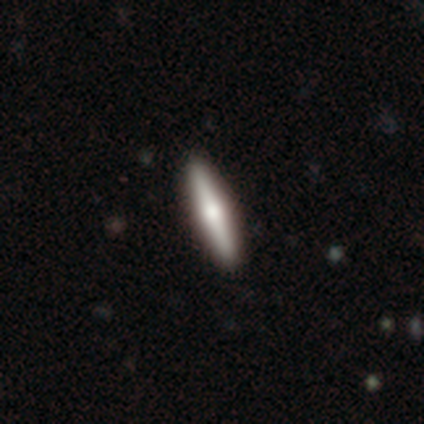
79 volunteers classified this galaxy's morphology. Volunteers were most divided on "smooth or featured": featured or disk: 54%, smooth: 42%, star or artifact: 4%. More confident: edge-on disk — yes (98%); edge-on bulge — rounded (95%); merging — none (50%).